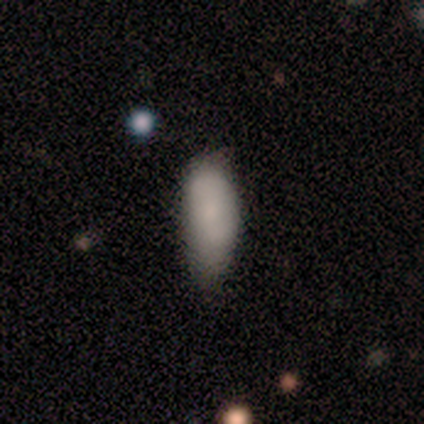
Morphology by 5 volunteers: smooth_or_featured: smooth (p=0.80) [alt: featured or disk p=0.20]
how_rounded: cigar-shaped (p=0.50) [alt: round p=0.25]
merging: minor disturbance (p=0.60) [alt: none p=0.40]